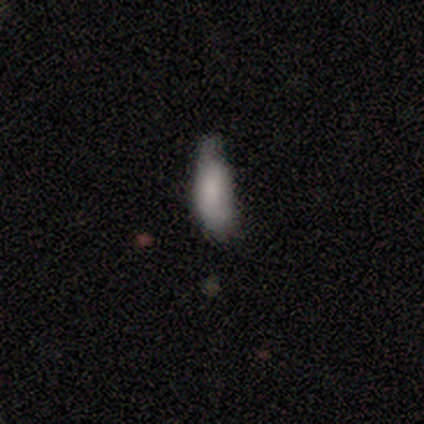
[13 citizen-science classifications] smooth_or_featured: smooth (p=0.69) [alt: featured or disk p=0.15]
how_rounded: in between (p=0.56) [alt: cigar-shaped p=0.44]
merging: minor disturbance (p=0.36) [alt: none p=0.27]